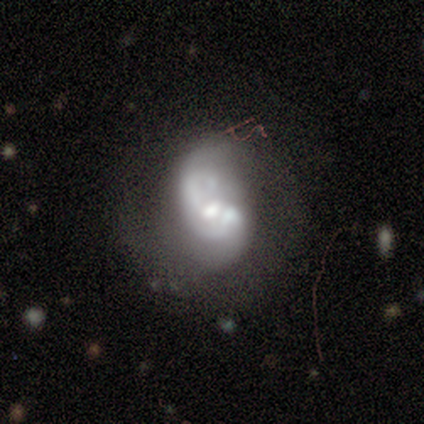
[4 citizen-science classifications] Morphology: type=featured or disk (75%); edge-on=no (100%); bar=no (67%); spiral arms=yes (67%); winding=loose (100%); arm count=1 (100%); bulge=moderate (67%); merging=merger (100%).